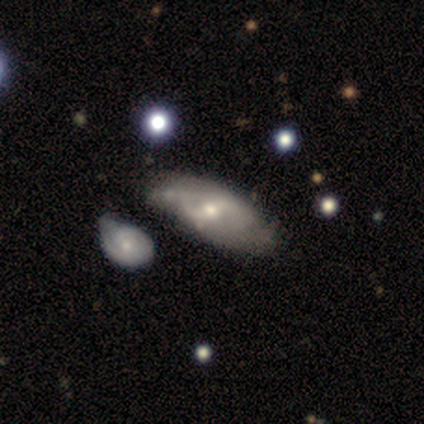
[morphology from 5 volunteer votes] This is marginally a smooth galaxy (40%, tied with featured or disk). How rounded: clearly in between (100%). Merging: marginally none (25%, tied with minor disturbance, major disturbance and merger).